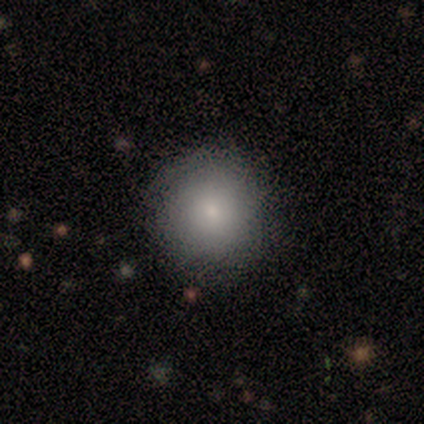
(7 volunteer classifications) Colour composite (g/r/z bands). It shows a smooth galaxy with no disk features (86%) that is round (100%). Merging: none (57%).